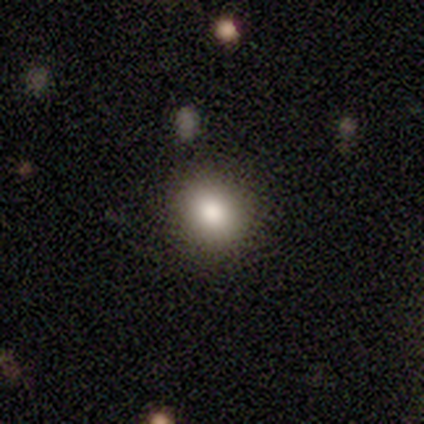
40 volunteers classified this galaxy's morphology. type=smooth (82%); roundness=round (79%); merging=none (70%).